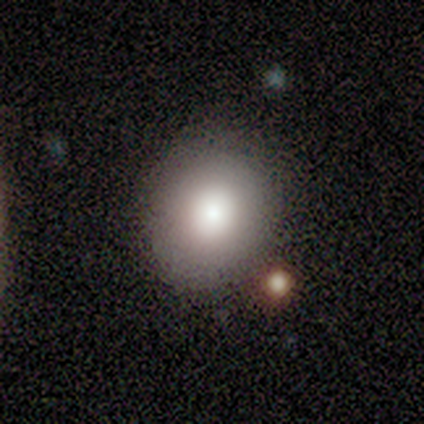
smooth-or-featured: smooth: 40% (tied) | featured or disk: 40% (tied) | star or artifact: 20%
  how-rounded: round: 50% (tied) | in between: 50% (tied) | cigar-shaped: 0%
  merging: none: 50% | minor disturbance: 25% | merger: 25% | major disturbance: 0%